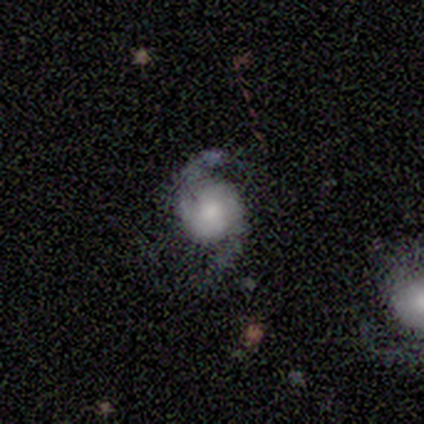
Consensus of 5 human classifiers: Smooth or featured: featured or disk — 100%
Edge-on disk: no — 100%
Bar: weak — 60% (strong — 20%)
Spiral arms: yes — 100%
Spiral winding: loose — 60% (tight — 20%)
Spiral arm count: 2 — 100%
Bulge size: moderate — 60% (small — 40%)
Merging: none — 80% (minor disturbance — 20%)